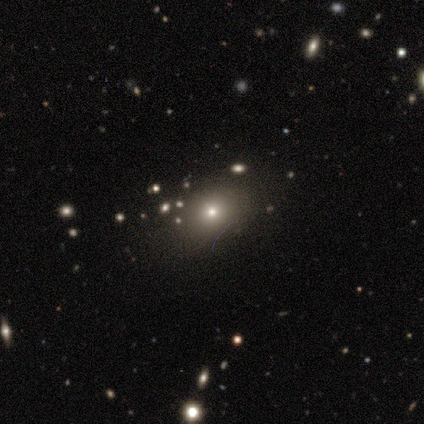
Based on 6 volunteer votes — smooth 33% (tied), featured or disk 33% (tied), star or artifact 33% (tied). Down the decision tree: how rounded — in between (100%); merging — none (100%).